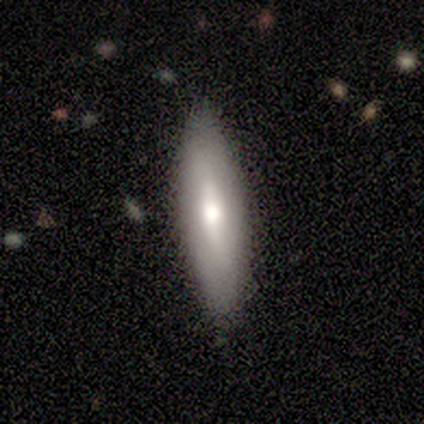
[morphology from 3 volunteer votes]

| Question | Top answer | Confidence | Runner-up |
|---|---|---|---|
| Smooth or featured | smooth | 100% | — |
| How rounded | in between | 67% | cigar-shaped (33%) |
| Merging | none | 100% | — |